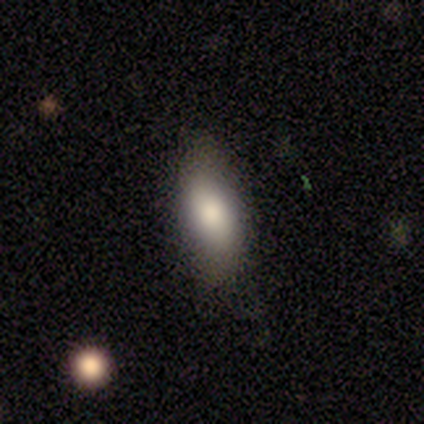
This appears to be a smooth galaxy with no disk features (100%) that is in between round and cigar-shaped (50%, tied with cigar-shaped). Merging: none (75%).